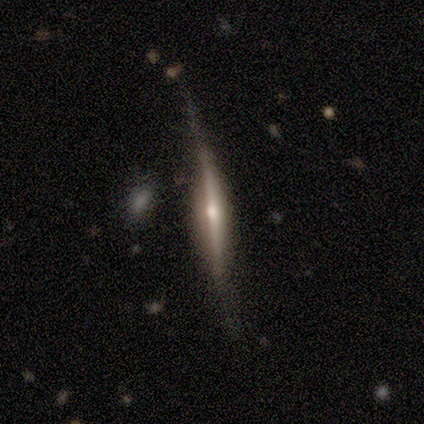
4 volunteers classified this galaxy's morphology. A featured or disk galaxy (100%) viewed edge-on (100%) with a rounded central bulge (50%).

Vote fractions:
- Smooth or featured? featured or disk: 100% / smooth: 0% / star or artifact: 0%
- Edge-on disk? yes: 100% / no: 0%
- Edge-on bulge? rounded: 50% / boxy: 25% / none: 25%
- Merging? none: 75% / major disturbance: 25% / minor disturbance: 0% / merger: 0%